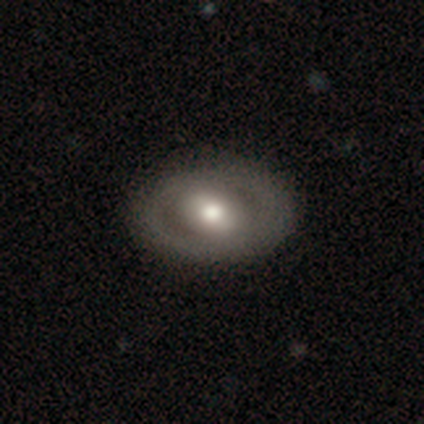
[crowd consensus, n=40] Overall: featured or disk (70%). Edge-on disk: no (96%). Bar: no (59%; weak 26%). Spiral arms: no (67%; yes 33%). Bulge size: moderate (78%). Merging: none (49%).